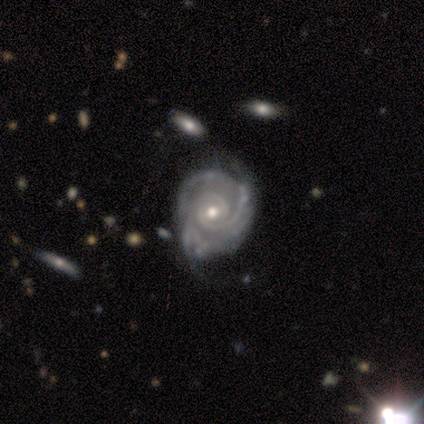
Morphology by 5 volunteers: Smooth or featured? 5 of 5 (100%) said featured or disk. Edge-on disk? 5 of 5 (100%) said no. Bar? 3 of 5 (60%) said weak. Spiral arms? 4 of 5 (80%) said yes. Spiral winding? 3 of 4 (75%) said tight. Spiral arm count? 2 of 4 (50%, tied with can't tell) said 2. Bulge size? 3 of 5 (60%) said moderate. Merging? 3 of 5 (60%) said minor disturbance.